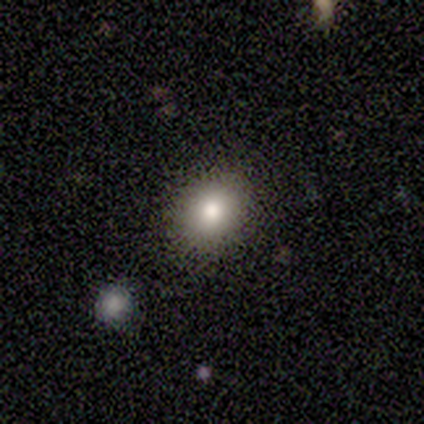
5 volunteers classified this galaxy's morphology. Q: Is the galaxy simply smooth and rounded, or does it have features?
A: smooth — 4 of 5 (80%).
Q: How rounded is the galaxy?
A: round — 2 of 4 (50%, tied with in between).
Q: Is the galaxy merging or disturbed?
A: none — 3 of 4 (75%).